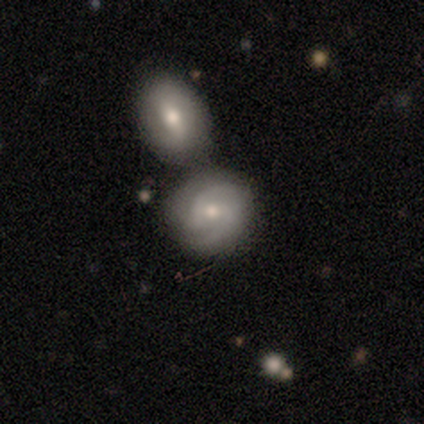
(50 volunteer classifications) This is possibly a featured or disk galaxy (56%). It is clearly not viewed edge-on (100%). Bar: possibly weak (54%). Spiral arm pattern: clearly yes (100%). Spiral arm count: clearly 2 (82%). Spiral winding: possibly medium (54%). Central bulge: likely moderate (64%). Merging: possibly merger (57%).